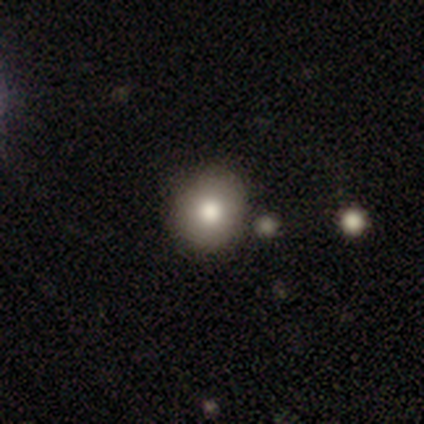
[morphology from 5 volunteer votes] smooth-or-featured: smooth: 80% | star or artifact: 20% | featured or disk: 0%
  how-rounded: round: 100% | in between: 0% | cigar-shaped: 0%
  merging: none: 75% | merger: 25% | minor disturbance: 0% | major disturbance: 0%